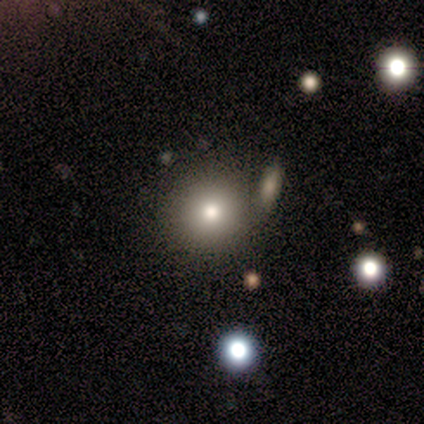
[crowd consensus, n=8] Smooth or featured? 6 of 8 (75%) said smooth. How rounded? 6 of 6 (100%) said round. Merging? 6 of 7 (86%) said none.